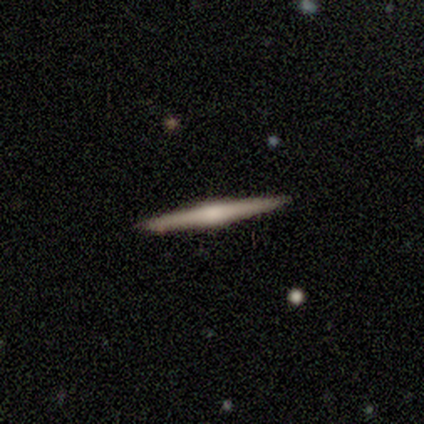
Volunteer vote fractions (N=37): A featured or disk galaxy (78%) viewed edge-on (97%) with a rounded central bulge (75%). Merging: none (97%).